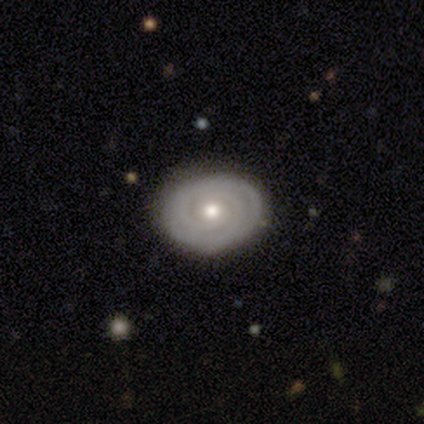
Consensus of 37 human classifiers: A featured or disk galaxy (86%) with no bar (87%), 2 (46%) tight (96%) spiral arms (90%) and a moderate central bulge (58%). Merging: none (86%).